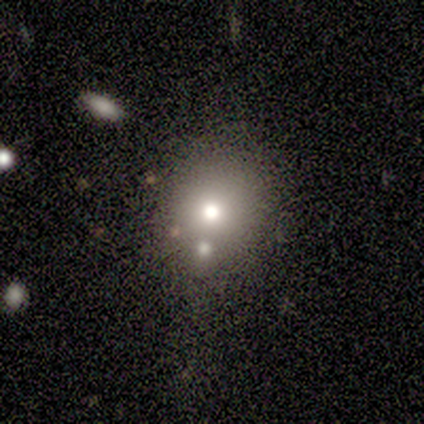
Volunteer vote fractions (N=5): smooth-or-featured: smooth: 80% | star or artifact: 20% | featured or disk: 0%
  how-rounded: round: 100% | in between: 0% | cigar-shaped: 0%
  merging: none: 75% | minor disturbance: 25% | major disturbance: 0% | merger: 0%